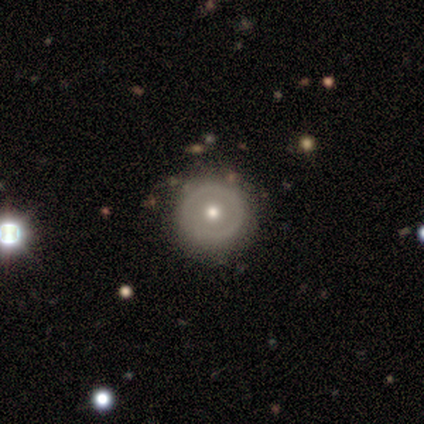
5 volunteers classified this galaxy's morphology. This is likely a featured or disk galaxy (60%). It is clearly not viewed edge-on (100%). Bar: clearly no (100%). Spiral arm pattern: clearly no (100%). Central bulge: clearly moderate (100%). Merging: clearly none (100%).